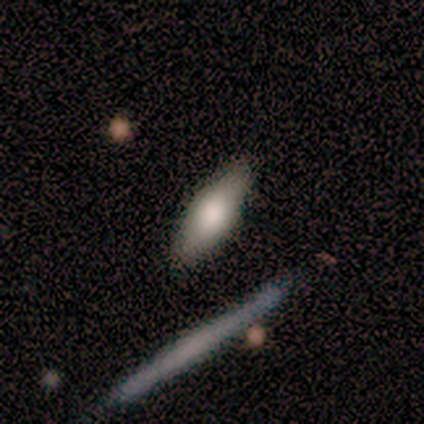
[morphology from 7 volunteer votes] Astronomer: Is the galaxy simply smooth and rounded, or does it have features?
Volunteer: smooth — 57% (runner-up: featured or disk, 43%).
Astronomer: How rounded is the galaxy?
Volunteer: in between — 50%, tied with cigar-shaped at 50%.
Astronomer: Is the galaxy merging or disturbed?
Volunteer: none — 100%.